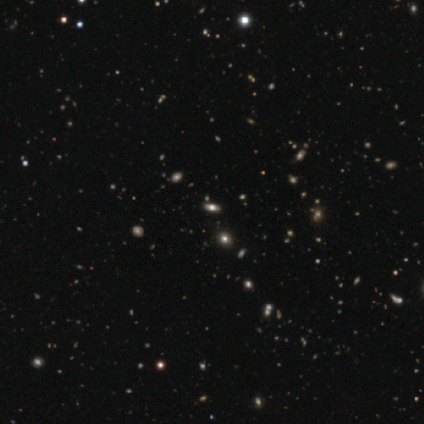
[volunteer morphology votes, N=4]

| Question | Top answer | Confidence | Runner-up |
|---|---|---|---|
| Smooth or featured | smooth | 75% | featured or disk (25%) |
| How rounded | in between | 67% | round (33%) |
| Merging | none | 100% | — |